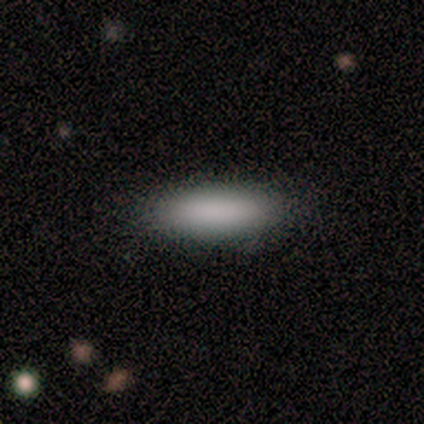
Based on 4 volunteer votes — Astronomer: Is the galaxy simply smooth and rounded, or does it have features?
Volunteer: smooth — 100%.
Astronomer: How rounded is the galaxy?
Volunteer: in between — 50%, tied with cigar-shaped at 50%.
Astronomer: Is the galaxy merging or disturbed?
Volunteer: none — 75%.